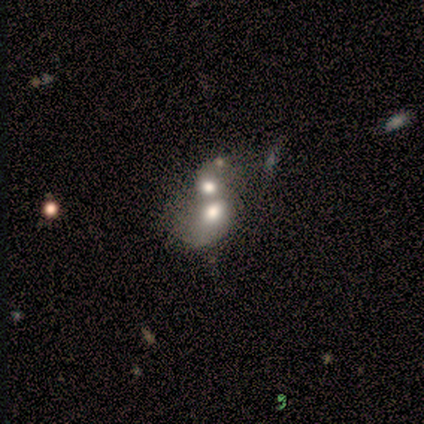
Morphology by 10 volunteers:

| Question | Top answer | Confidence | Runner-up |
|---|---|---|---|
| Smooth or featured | smooth | 50% | featured or disk (30%) |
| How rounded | in between | 80% | round (20%) |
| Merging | merger | 88% | none (12%) |